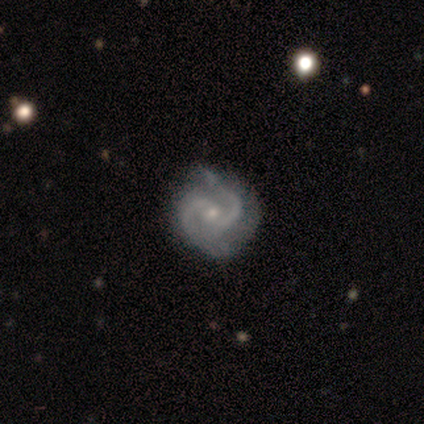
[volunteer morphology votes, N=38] Smooth or featured: featured or disk — 82% (smooth — 11%)
Edge-on disk: no — 100%
Bar: no — 58% (weak — 39%)
Spiral arms: yes — 90% (no — 10%)
Spiral winding: medium — 64% (tight — 21%)
Spiral arm count: 2 — 93% (1 — 4%)
Bulge size: small — 71% (moderate — 23%)
Merging: none — 69% (minor disturbance — 26%)